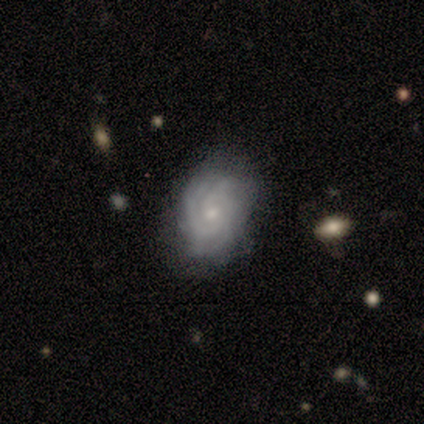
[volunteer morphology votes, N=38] Smooth or featured? 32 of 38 (84%) said featured or disk. Edge-on disk? 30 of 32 (94%) said no. Bar? 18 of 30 (60%) said no. Spiral arms? 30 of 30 (100%) said yes. Spiral winding? 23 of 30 (77%) said tight. Spiral arm count? 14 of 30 (47%) said can't tell. Bulge size? 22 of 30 (73%) said small. Merging? 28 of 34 (82%) said none.